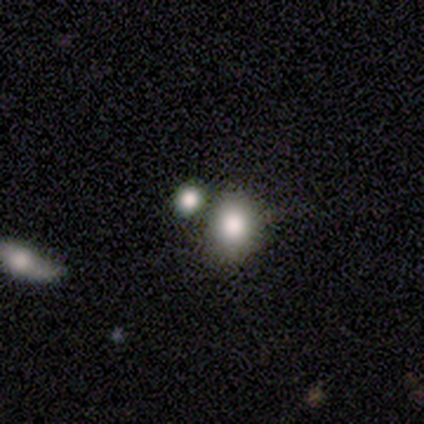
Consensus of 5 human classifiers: Morphology: type=smooth (100%); roundness=round (60%); merging=none (40%, tied with merger).